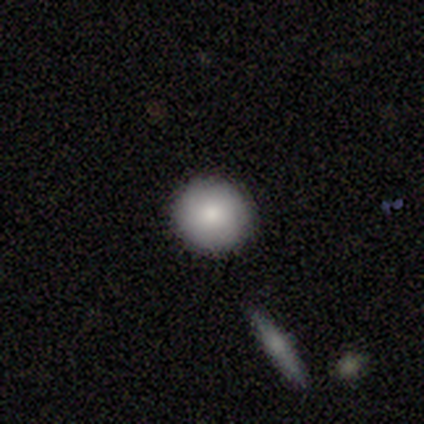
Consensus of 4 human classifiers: smooth-or-featured: smooth: 100% | featured or disk: 0% | star or artifact: 0%
  how-rounded: round: 100% | in between: 0% | cigar-shaped: 0%
  merging: none: 100% | minor disturbance: 0% | major disturbance: 0% | merger: 0%